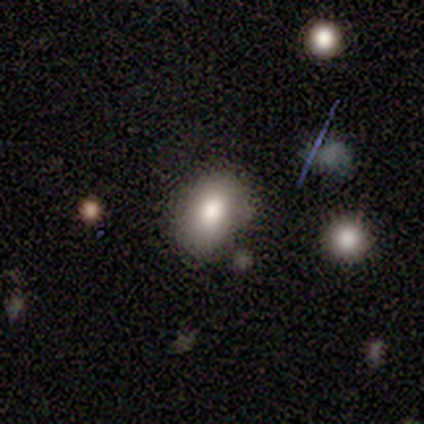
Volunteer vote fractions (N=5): Morphology: type=smooth (60%); roundness=in between (100%); merging=none (100%).